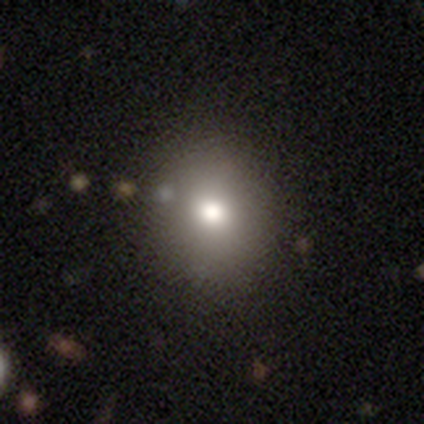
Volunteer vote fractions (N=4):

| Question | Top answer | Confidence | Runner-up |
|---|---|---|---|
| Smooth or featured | star or artifact | 75% | smooth (25%) |